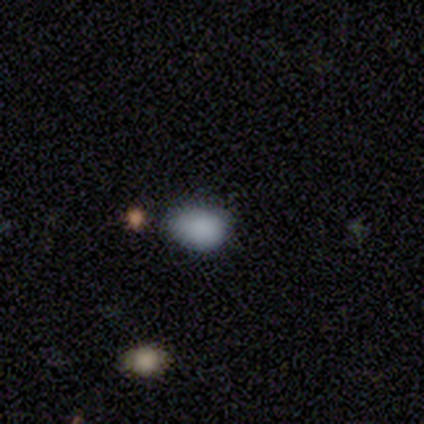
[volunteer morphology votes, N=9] Smooth or featured: smooth — 78% (featured or disk — 11%)
How rounded: in between — 100%
Merging: none — 50% (minor disturbance — 38%)